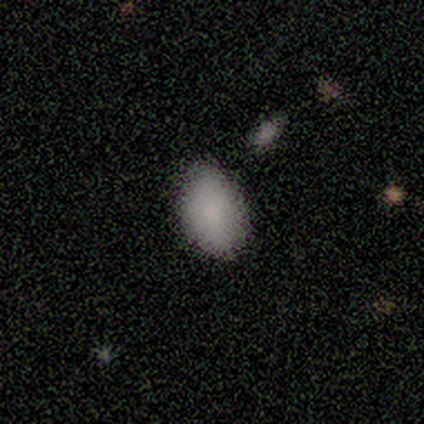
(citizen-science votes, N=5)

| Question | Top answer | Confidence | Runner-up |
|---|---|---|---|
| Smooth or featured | smooth | 80% | featured or disk (20%) |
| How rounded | in between | 100% | — |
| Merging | none | 100% | — |